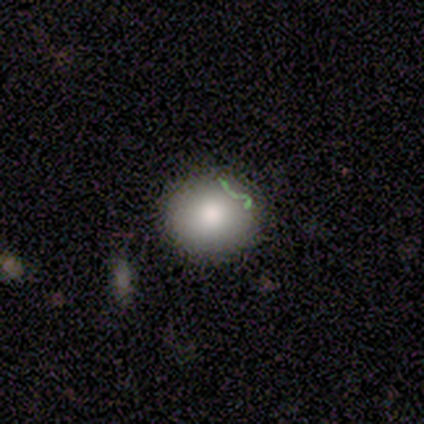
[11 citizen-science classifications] Smooth or featured? smooth (82%)
How rounded? round (89%)
Merging? none (89%)